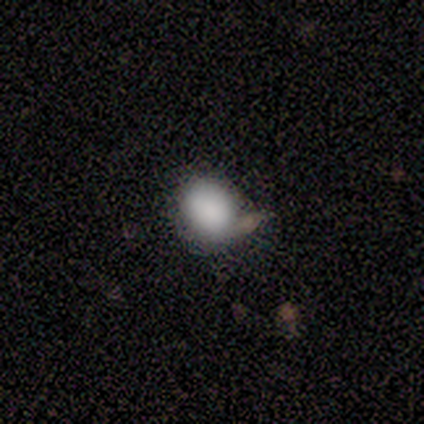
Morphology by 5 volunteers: Volunteers were most divided on "smooth or featured": smooth: 80%, star or artifact: 20%, featured or disk: 0%. More confident: how rounded — round (100%); merging — none (100%).